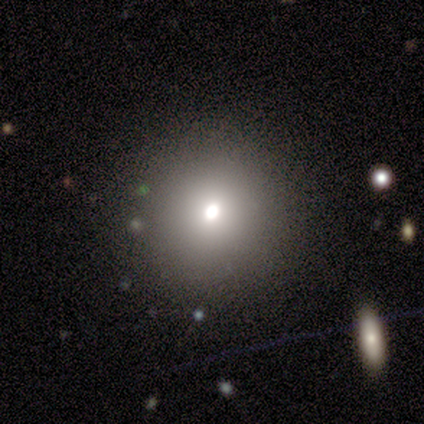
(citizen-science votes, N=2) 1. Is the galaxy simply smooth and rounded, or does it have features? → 100% smooth, 0% featured or disk, 0% star or artifact.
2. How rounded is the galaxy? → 50% round (tied), 50% in between (tied), 0% cigar-shaped.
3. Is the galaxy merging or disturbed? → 100% none, 0% minor disturbance, 0% major disturbance, 0% merger.